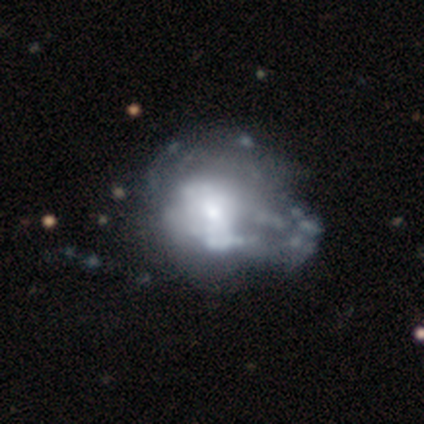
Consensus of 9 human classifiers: Smooth or featured? 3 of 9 (33%, tied with featured or disk and star or artifact) said smooth. How rounded? 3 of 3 (100%) said round. Merging? 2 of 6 (33%) said minor disturbance.